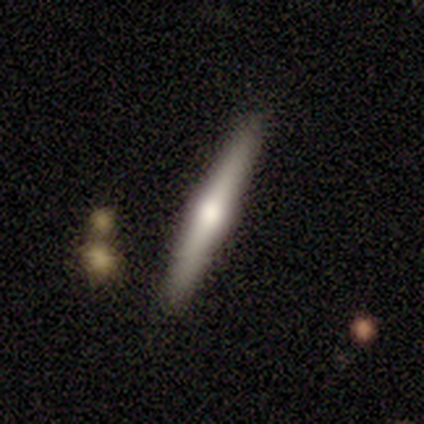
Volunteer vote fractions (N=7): This is possibly a featured or disk galaxy (57%). It is clearly viewed edge-on (100%). Edge-on bulge: clearly rounded (100%). Merging: clearly none (100%).